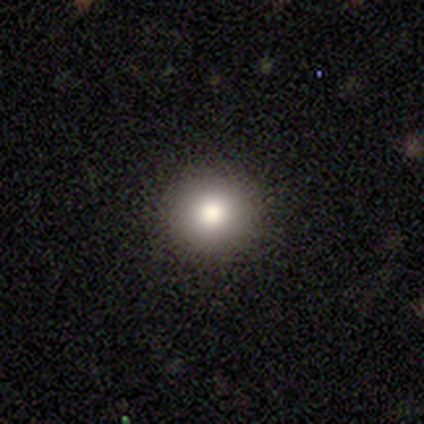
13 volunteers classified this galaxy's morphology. Overall: smooth (92%). How rounded: round (100%). Merging: none (92%).